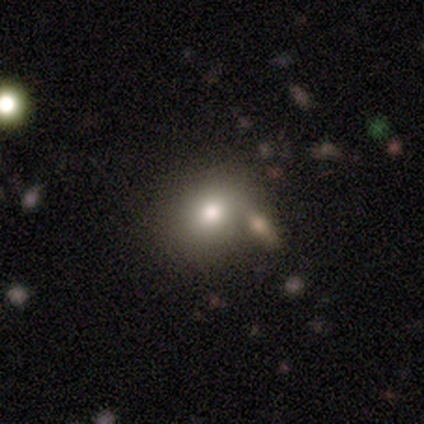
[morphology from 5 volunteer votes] Overall: smooth (80%). How rounded: round (75%). Merging: none (75%).